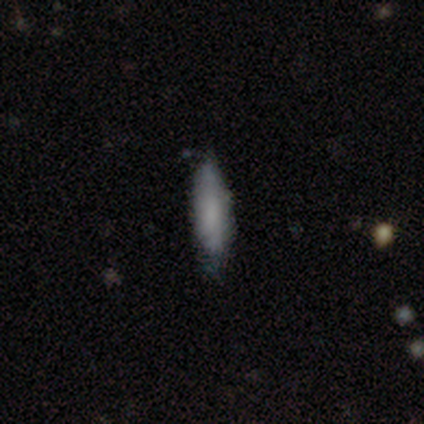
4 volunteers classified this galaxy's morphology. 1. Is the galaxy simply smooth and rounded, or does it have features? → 50% smooth (tied), 50% featured or disk (tied), 0% star or artifact.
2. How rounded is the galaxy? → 50% in between (tied), 50% cigar-shaped (tied), 0% round.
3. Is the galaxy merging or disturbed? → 100% none, 0% minor disturbance, 0% major disturbance, 0% merger.